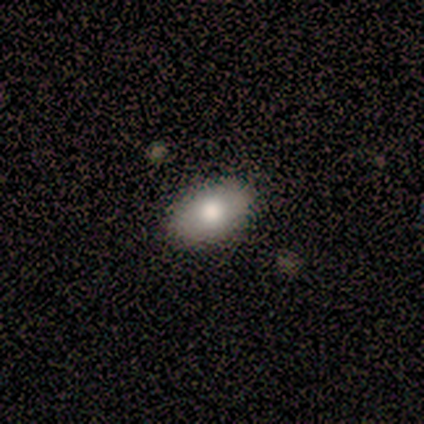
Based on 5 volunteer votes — Smooth or featured: smooth — 80% (featured or disk — 20%)
How rounded: in between — 50% (round — 25%)
Merging: none — 100%